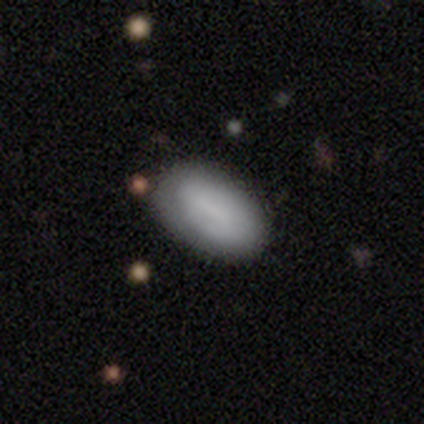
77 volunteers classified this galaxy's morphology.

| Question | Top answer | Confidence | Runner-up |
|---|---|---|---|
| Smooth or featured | smooth | 75% | featured or disk (21%) |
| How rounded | in between | 97% | round (2%) |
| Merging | none | 38% | minor disturbance (9%) |